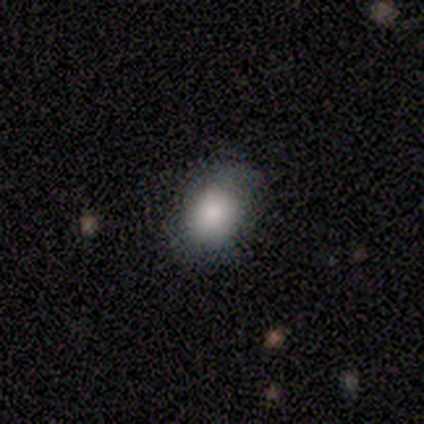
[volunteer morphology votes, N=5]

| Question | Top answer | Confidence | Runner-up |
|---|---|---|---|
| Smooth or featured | smooth | 60% | featured or disk (20%) |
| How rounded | in between | 67% | round (33%) |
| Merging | none | 100% | — |